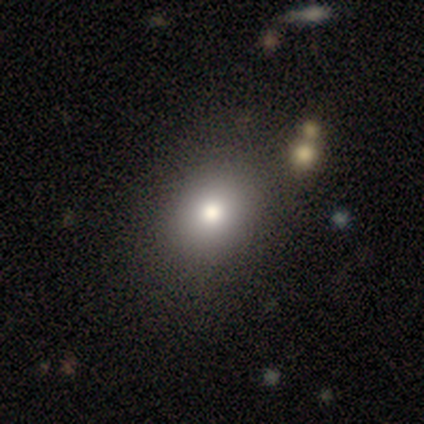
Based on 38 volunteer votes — A smooth galaxy with no disk features (79%) that is round (53%). Merging: none (84%).